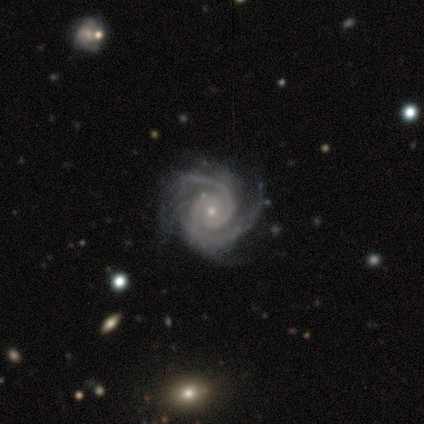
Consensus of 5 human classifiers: Q: Smooth or featured?
A: featured or disk (100%)
Q: Edge-on disk?
A: no (100%)
Q: Bar?
A: weak (60%); runner-up: no (40%)
Q: Spiral arms?
A: yes (100%)
Q: Spiral winding?
A: tight (60%); runner-up: medium (40%)
Q: Spiral arm count?
A: 2 (40%); tied with: 3 (40%)
Q: Bulge size?
A: moderate (60%); runner-up: small (40%)
Q: Merging?
A: none (60%); runner-up: minor disturbance (20%)